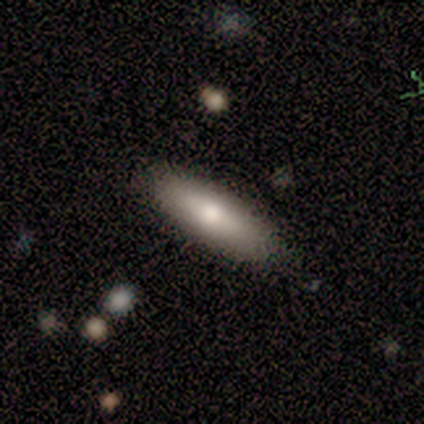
Q: Smooth or featured?
A: smooth (92%); runner-up: featured or disk (8%)
Q: How rounded?
A: in between (50%); tied with: cigar-shaped (50%)
Q: Merging?
A: none (92%); runner-up: minor disturbance (8%)